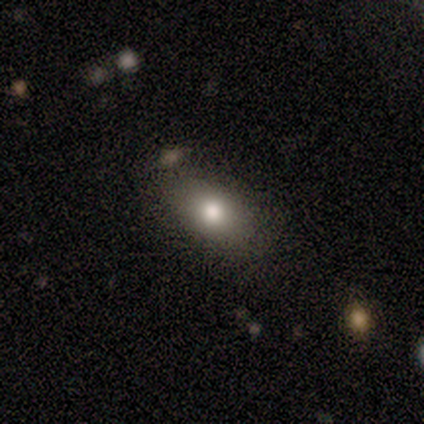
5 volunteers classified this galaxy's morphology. Smooth or featured: smooth — 80% (featured or disk — 20%)
How rounded: in between — 75% (round — 25%)
Merging: none — 100%